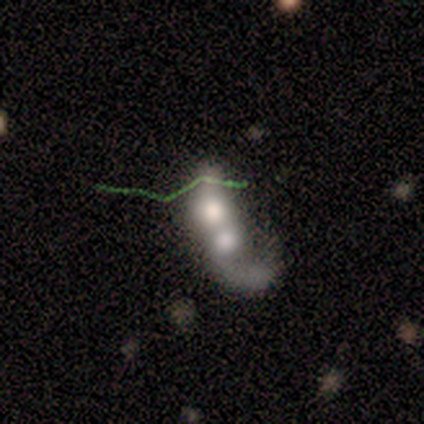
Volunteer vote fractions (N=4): Morphology: type=featured or disk (50%); edge-on=yes (50%, tied with no); edge-on bulge=rounded (100%); merging=merger (100%).